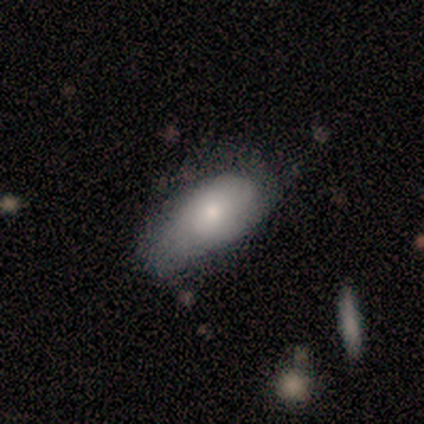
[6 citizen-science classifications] Smooth or featured? 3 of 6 (50%, tied with featured or disk) said smooth. How rounded? 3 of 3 (100%) said in between. Merging? 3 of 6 (50%) said minor disturbance.